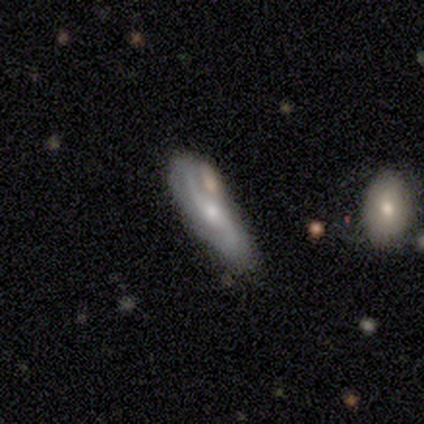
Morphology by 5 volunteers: smooth_or_featured: smooth (p=0.60) [alt: featured or disk p=0.40]
how_rounded: cigar-shaped (p=1.00)
merging: none (p=1.00)